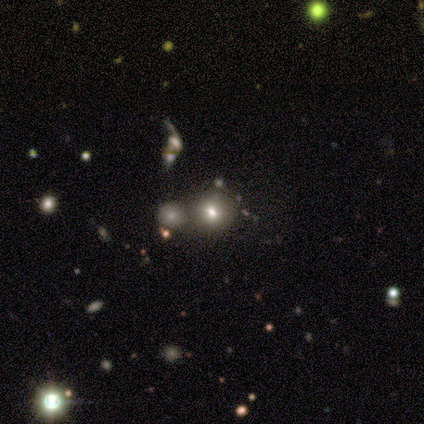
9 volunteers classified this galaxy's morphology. Smooth or featured? 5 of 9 (56%) said smooth. How rounded? 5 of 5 (100%) said round. Merging? 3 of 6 (50%, tied with merger) said none.